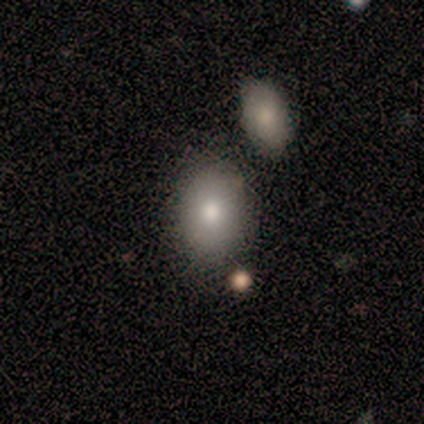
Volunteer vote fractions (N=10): A smooth galaxy with no disk features (90%) that is in between round and cigar-shaped (89%).

Vote fractions:
- Smooth or featured? smooth: 90% / star or artifact: 10% / featured or disk: 0%
- How rounded? in between: 89% / round: 11% / cigar-shaped: 0%
- Merging? none: 67% / minor disturbance: 22% / merger: 11% / major disturbance: 0%